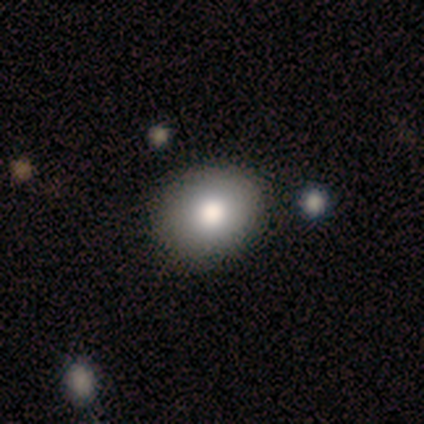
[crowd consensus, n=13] Q: Smooth or featured?
A: smooth (85%); runner-up: featured or disk (15%)
Q: How rounded?
A: round (73%); runner-up: in between (27%)
Q: Merging?
A: none (92%); runner-up: minor disturbance (8%)